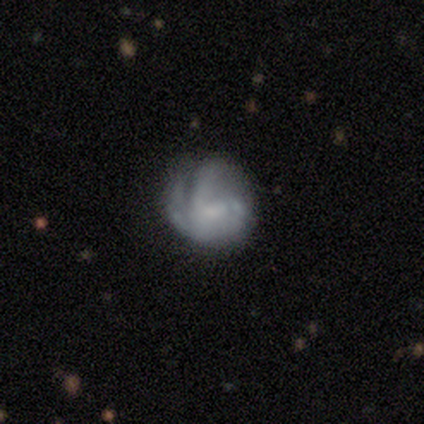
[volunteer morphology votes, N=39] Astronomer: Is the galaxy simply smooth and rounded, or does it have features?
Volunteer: featured or disk — 62%.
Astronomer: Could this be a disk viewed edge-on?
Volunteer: no — 100%.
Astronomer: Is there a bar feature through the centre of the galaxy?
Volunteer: no — 58% (runner-up: weak, 42%).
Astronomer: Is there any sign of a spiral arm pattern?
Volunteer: yes — 67%.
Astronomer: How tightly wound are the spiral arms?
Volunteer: medium — 56%.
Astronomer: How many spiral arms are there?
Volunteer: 2 — 44% (runner-up: can't tell, 25%).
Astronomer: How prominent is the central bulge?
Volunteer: small — 50%.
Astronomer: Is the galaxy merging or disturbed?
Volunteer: none — 54%.